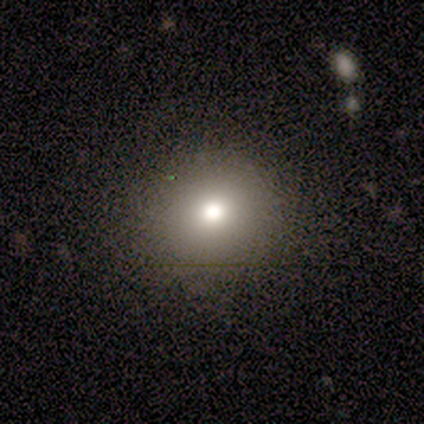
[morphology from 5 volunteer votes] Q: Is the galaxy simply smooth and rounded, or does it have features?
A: smooth — 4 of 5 (80%).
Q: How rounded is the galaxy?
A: round — 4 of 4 (100%).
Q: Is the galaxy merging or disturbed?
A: none — 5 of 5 (100%).